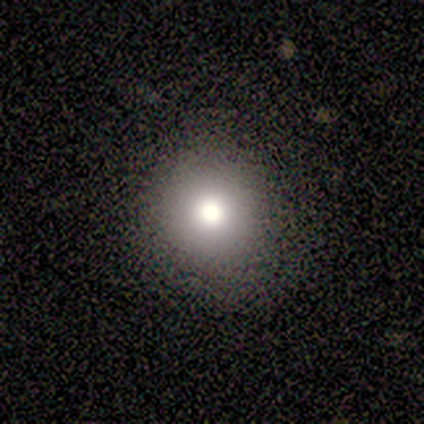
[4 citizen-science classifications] Volunteers were most divided on "bulge size" (3-way tie): large: 33%, moderate: 33%, small: 33%, dominant: 0%, none: 0%. More confident: edge-on disk — no (100%); bar — no (100%); spiral arms — no (100%); merging — none (100%); smooth or featured — featured or disk (75%).